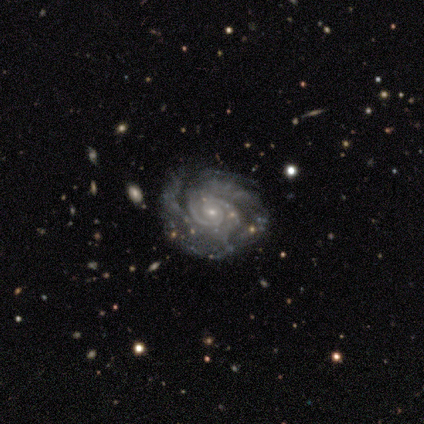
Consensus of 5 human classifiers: Smooth or featured? 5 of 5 (100%) said featured or disk. Edge-on disk? 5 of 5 (100%) said no. Bar? 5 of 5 (100%) said no. Spiral arms? 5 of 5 (100%) said yes. Spiral winding? 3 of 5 (60%) said tight. Spiral arm count? 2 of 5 (40%, tied with can't tell) said 3. Bulge size? 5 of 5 (100%) said small. Merging? 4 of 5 (80%) said none.